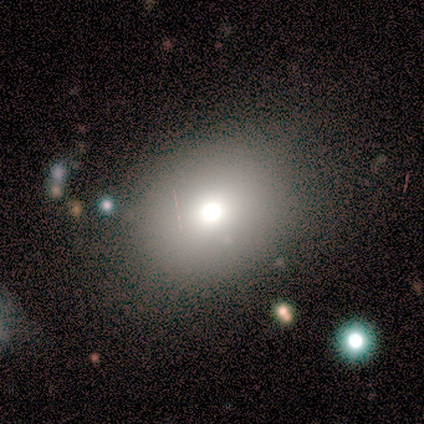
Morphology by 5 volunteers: Smooth or featured?
  - smooth: 40% * (tied)
  - star or artifact: 40% * (tied)
  - featured or disk: 20%
How rounded?
  - round: 50% * (tied)
  - in between: 50% * (tied)
  - cigar-shaped: 0%
Merging?
  - none: 67% *
  - merger: 33%
  - minor disturbance: 0%
  - major disturbance: 0%